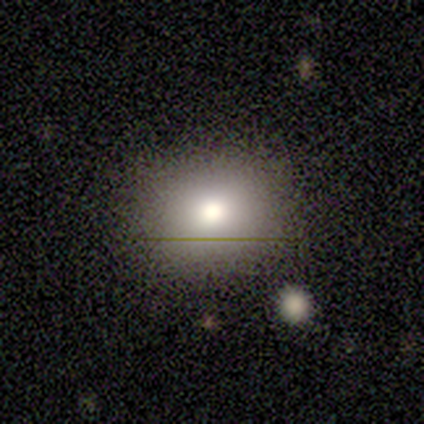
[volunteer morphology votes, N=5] type=smooth (40%, tied with featured or disk); roundness=round (50%, tied with in between); merging=none (100%).